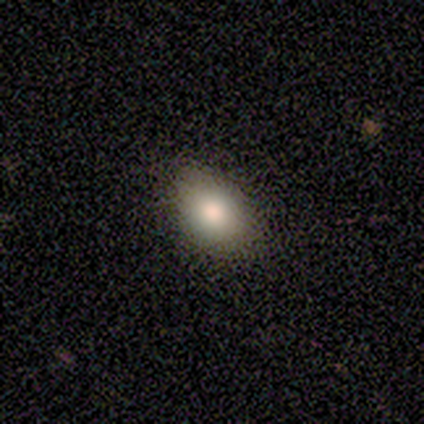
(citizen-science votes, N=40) smooth 90%, featured or disk 8%, star or artifact 2%. Down the decision tree: how rounded — in between (83%); merging — none (67%).